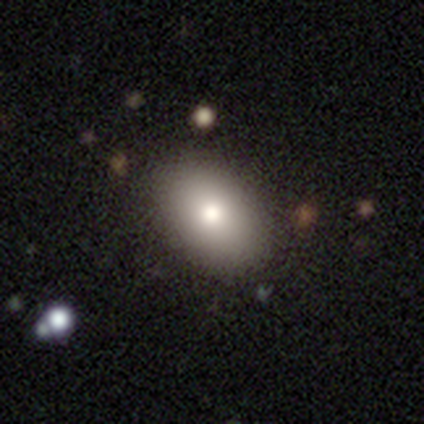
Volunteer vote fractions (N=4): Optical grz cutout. It shows a smooth galaxy with no disk features (100%) that is round (50%, tied with in between). Merging: none (50%).